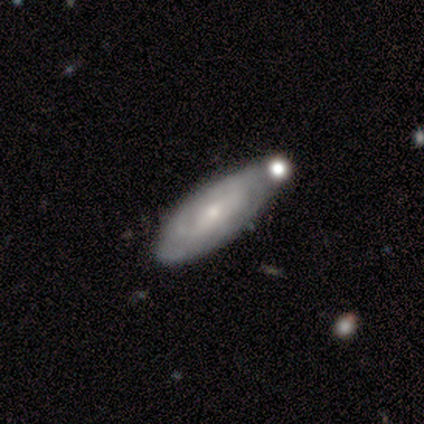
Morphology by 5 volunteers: smooth_or_featured: featured or disk (p=0.60) [alt: smooth p=0.40]
disk_edge_on: no (p=1.00)
bar: weak (p=1.00)
has_spiral_arms: yes (p=0.67) [alt: no p=0.33]
spiral_winding: tight (p=0.50) [tied with: medium p=0.50]
spiral_arm_count: can't tell (p=1.00)
bulge_size: small (p=1.00)
merging: minor disturbance (p=0.80) [alt: none p=0.20]